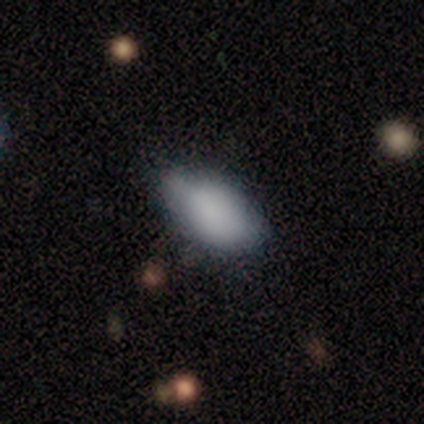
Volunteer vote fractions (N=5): smooth_or_featured: smooth (p=0.80) [alt: featured or disk p=0.20]
how_rounded: in between (p=1.00)
merging: minor disturbance (p=0.60) [alt: none p=0.40]